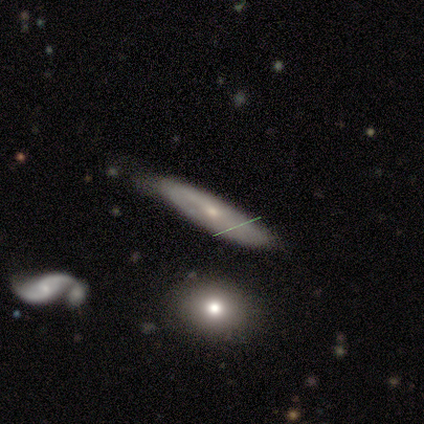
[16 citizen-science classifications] smooth-or-featured: featured or disk: 50% | smooth: 44% | star or artifact: 6%
  disk-edge-on: yes: 62% | no: 38%
    edge-on-bulge: none: 40% (tied) | rounded: 40% (tied) | boxy: 20%
  merging: none: 67% | minor disturbance: 33% | major disturbance: 0% | merger: 0%